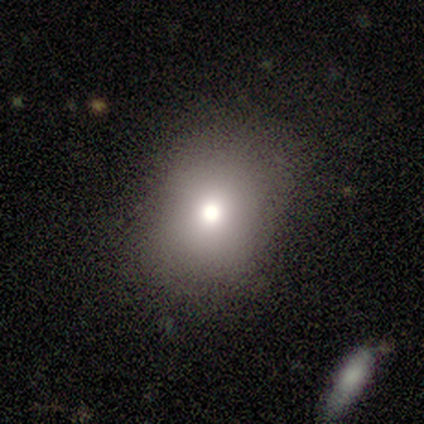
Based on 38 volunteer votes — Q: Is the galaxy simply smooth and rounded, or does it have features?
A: smooth — 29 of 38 (76%).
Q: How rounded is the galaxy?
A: round — 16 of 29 (55%).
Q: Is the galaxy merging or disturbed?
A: none — 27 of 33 (82%).